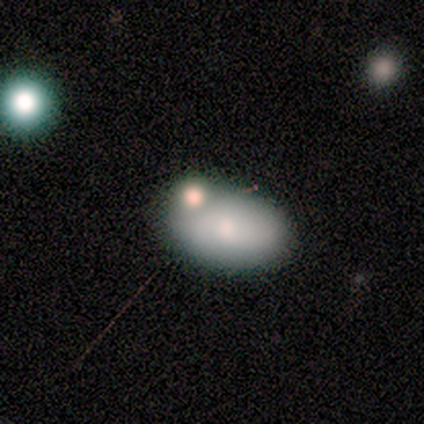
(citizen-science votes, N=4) Smooth or featured? smooth (75%)
How rounded? in between (67%)
Merging? merger (50%)